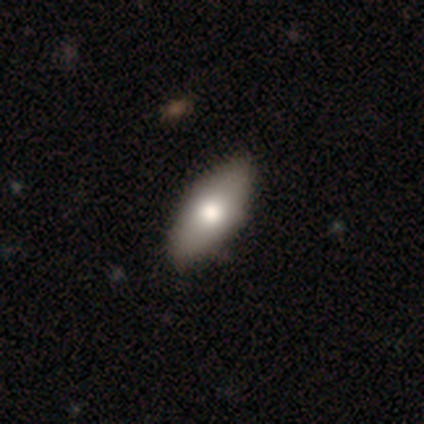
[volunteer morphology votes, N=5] Smooth or featured?
  - smooth: 60% *
  - featured or disk: 40%
  - star or artifact: 0%
How rounded?
  - in between: 100% *
  - round: 0%
  - cigar-shaped: 0%
Merging?
  - none: 60% *
  - minor disturbance: 20%
  - major disturbance: 20%
  - merger: 0%